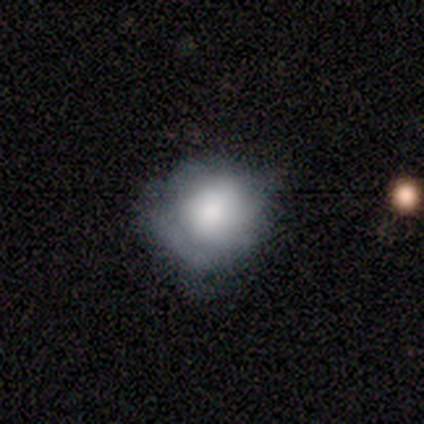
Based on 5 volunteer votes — smooth_or_featured: smooth (p=0.60) [alt: featured or disk p=0.40]
how_rounded: round (p=0.67) [alt: in between p=0.33]
merging: minor disturbance (p=0.60) [alt: none p=0.40]